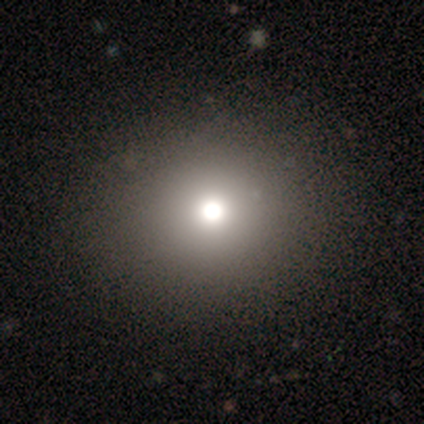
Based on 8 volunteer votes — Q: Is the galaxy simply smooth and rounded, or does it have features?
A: smooth — 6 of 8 (75%).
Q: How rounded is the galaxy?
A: round — 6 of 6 (100%).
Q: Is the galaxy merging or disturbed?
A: none — 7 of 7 (100%).